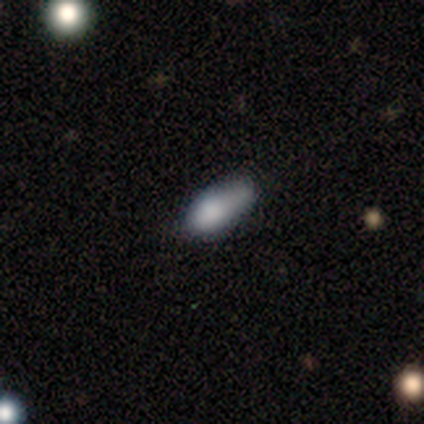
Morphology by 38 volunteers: Smooth or featured? 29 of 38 (76%) said smooth. How rounded? 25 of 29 (86%) said in between. Merging? 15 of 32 (47%) said none.